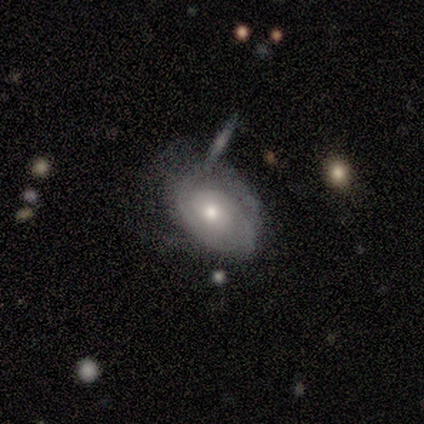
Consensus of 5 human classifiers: smooth_or_featured: featured or disk (p=0.80) [alt: star or artifact p=0.20]
disk_edge_on: no (p=1.00)
bar: no (p=1.00)
has_spiral_arms: yes (p=1.00)
spiral_winding: tight (p=0.75) [alt: medium p=0.25]
spiral_arm_count: can't tell (p=0.75) [alt: 3 p=0.25]
bulge_size: small (p=0.75) [alt: moderate p=0.25]
merging: none (p=0.75) [alt: minor disturbance p=0.25]